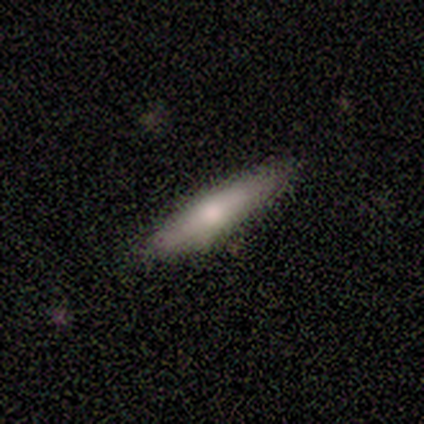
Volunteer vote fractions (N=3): Smooth or featured? 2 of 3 (67%) said smooth. How rounded? 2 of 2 (100%) said cigar-shaped. Merging? 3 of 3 (100%) said none.